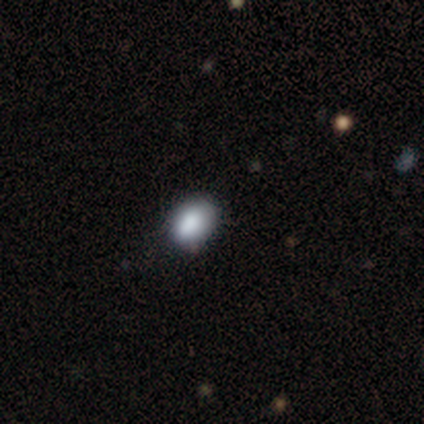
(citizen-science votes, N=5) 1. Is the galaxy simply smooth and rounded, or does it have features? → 100% smooth, 0% featured or disk, 0% star or artifact.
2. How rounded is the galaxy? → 80% in between, 20% round, 0% cigar-shaped.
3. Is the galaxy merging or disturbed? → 100% none, 0% minor disturbance, 0% major disturbance, 0% merger.